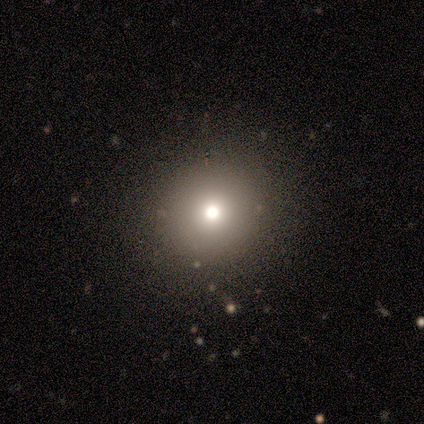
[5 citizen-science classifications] smooth 80%, star or artifact 20%, featured or disk 0%. Down the decision tree: how rounded — round (100%); merging — none (100%).